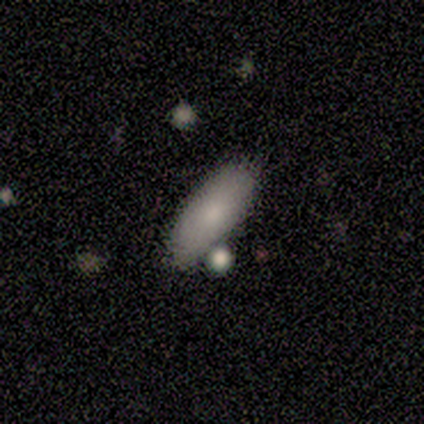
Smooth or featured? smooth (100%)
How rounded? in between (80%)
Merging? none (100%)